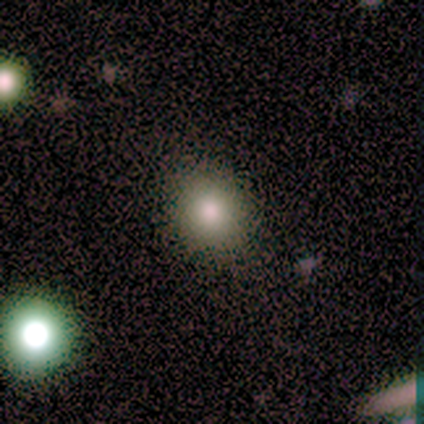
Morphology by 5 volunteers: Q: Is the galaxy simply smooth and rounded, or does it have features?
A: smooth — 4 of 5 (80%).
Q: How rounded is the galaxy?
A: round — 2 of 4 (50%, tied with in between).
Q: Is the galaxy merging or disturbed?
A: none — 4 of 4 (100%).